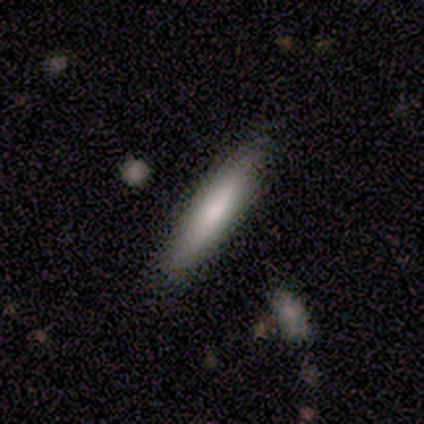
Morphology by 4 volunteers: This appears to be a smooth galaxy with no disk features (100%) that is cigar-shaped (100%). Merging: none (100%).